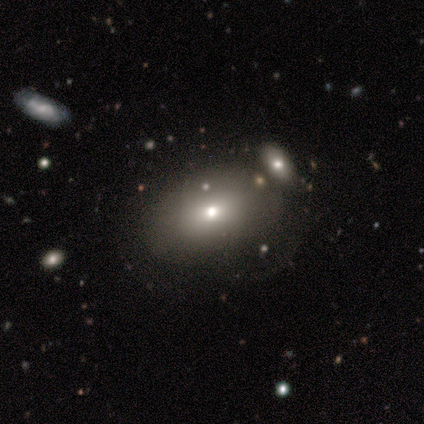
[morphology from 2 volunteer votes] Smooth or featured?
  - smooth: 100% *
  - featured or disk: 0%
  - star or artifact: 0%
How rounded?
  - in between: 100% *
  - round: 0%
  - cigar-shaped: 0%
Merging?
  - none: 50% * (tied)
  - minor disturbance: 50% * (tied)
  - major disturbance: 0%
  - merger: 0%